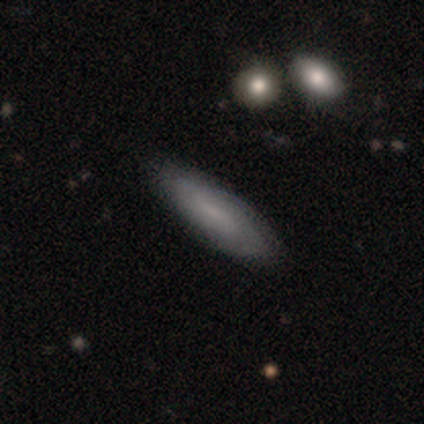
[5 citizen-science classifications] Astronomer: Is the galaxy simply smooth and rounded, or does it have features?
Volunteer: smooth — 60%.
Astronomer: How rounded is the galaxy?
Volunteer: cigar-shaped — 100%.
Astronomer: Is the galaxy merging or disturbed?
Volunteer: none — 50%, tied with minor disturbance at 50%.